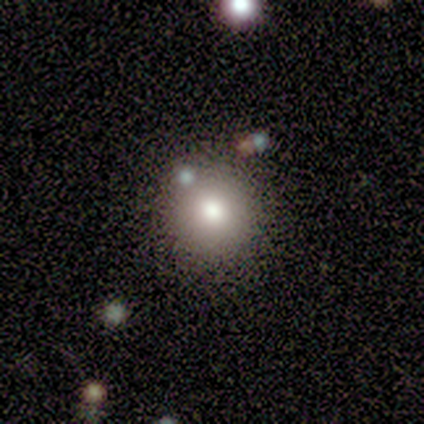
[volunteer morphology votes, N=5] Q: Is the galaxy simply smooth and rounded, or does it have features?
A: smooth — 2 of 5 (40%, tied with featured or disk).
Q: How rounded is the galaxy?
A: round — 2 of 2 (100%).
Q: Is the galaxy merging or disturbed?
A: none — 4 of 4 (100%).